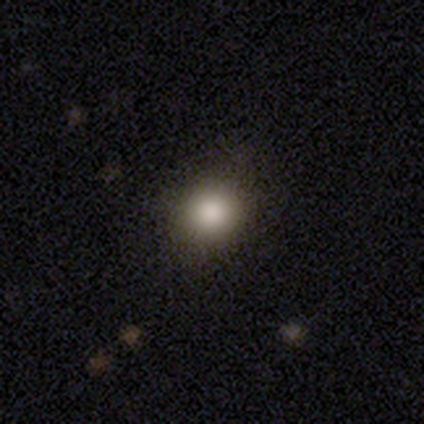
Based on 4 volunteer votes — Morphology: type=smooth (100%); roundness=round (75%); merging=none (75%).